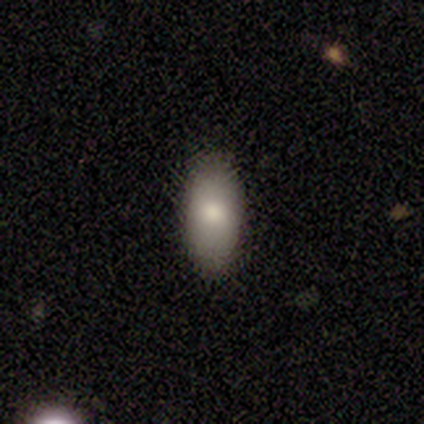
smooth_or_featured: smooth (p=1.00)
how_rounded: in between (p=0.75) [alt: cigar-shaped p=0.25]
merging: none (p=0.50) [tied with: minor disturbance p=0.50]